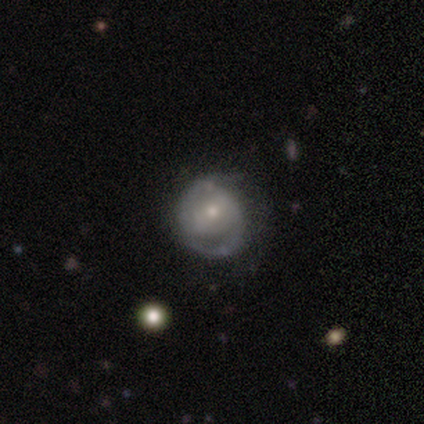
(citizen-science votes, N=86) Smooth or featured? 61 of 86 (71%) said featured or disk. Edge-on disk? 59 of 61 (97%) said no. Bar? 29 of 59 (49%) said no. Spiral arms? 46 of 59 (78%) said yes. Spiral winding? 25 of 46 (54%) said tight. Spiral arm count? 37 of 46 (80%) said 2. Bulge size? 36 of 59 (61%) said small. Merging? 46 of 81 (57%) said none.